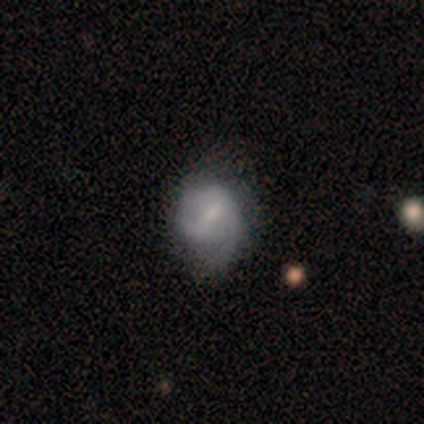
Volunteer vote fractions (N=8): Smooth or featured? featured or disk (88%)
Edge-on disk? no (100%)
Bar? weak (57%)
Spiral arms? yes (86%)
Spiral winding? medium (50%)
Spiral arm count? can't tell (67%)
Bulge size? small (57%)
Merging? none (50%, tied with minor disturbance)